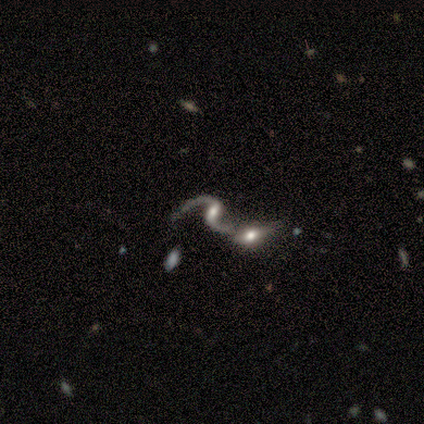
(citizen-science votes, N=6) Q: Smooth or featured?
A: featured or disk (100%)
Q: Edge-on disk?
A: no (83%); runner-up: yes (17%)
Q: Bar?
A: weak (60%); runner-up: strong (20%)
Q: Spiral arms?
A: yes (100%)
Q: Spiral winding?
A: loose (80%); runner-up: medium (20%)
Q: Spiral arm count?
A: 2 (100%)
Q: Bulge size?
A: moderate (40%); tied with: small (40%)
Q: Merging?
A: none (50%); tied with: merger (50%)